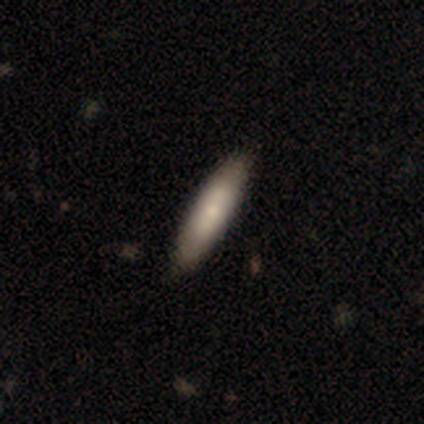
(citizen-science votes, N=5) Q: Smooth or featured?
A: smooth (80%); runner-up: featured or disk (20%)
Q: How rounded?
A: cigar-shaped (100%)
Q: Merging?
A: none (100%)